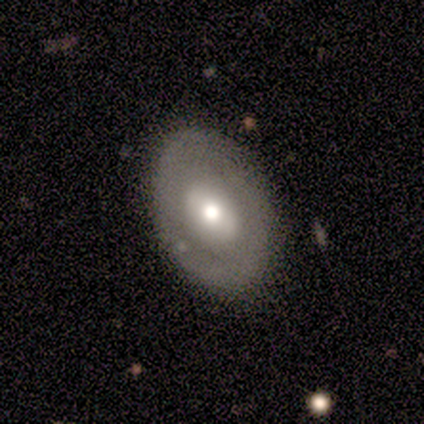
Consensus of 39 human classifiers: Volunteers were most divided on "smooth or featured": smooth: 49%, featured or disk: 41%, star or artifact: 10%. More confident: how rounded — in between (84%); merging — none (77%).